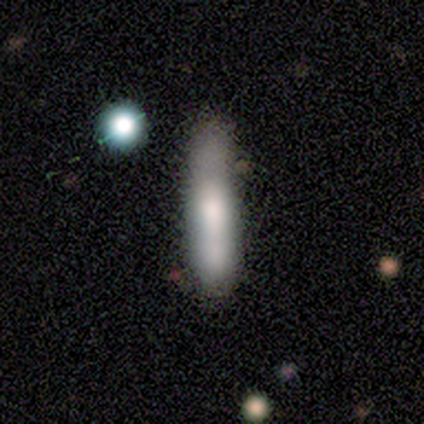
Smooth or featured? smooth (64%)
How rounded? cigar-shaped (84%)
Merging? none (29%)